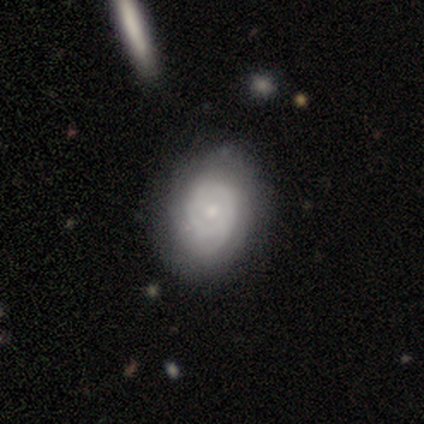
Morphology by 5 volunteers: Overall: smooth (40%, tied with featured or disk). How rounded: in between (100%). Merging: none (100%).